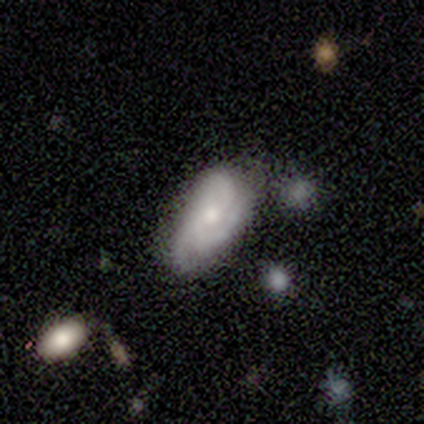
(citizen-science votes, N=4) Volunteers were most divided on "spiral arms" (2-way tie): yes: 50%, no: 50%; "merging" (3-way tie): none: 33%, minor disturbance: 33%, merger: 33%, major disturbance: 0%. More confident: edge-on disk — no (100%); bar — no (100%); spiral winding — medium (100%); spiral arm count — 3 (100%); bulge size — small (100%); smooth or featured — featured or disk (50%).